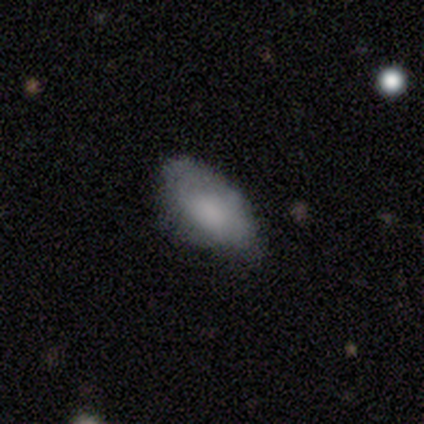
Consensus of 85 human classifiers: Morphology: type=smooth (72%); roundness=in between (97%); merging=none (62%).